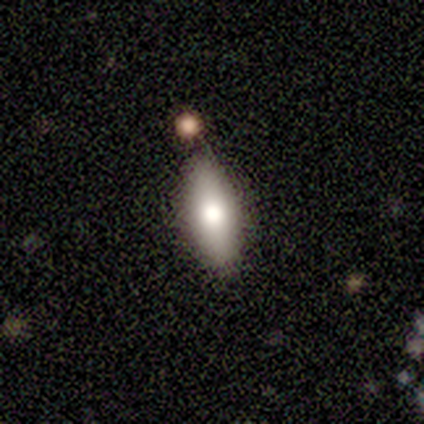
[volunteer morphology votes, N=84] A smooth galaxy with no disk features (74%) that is in between round and cigar-shaped (74%). Merging: none (66%).